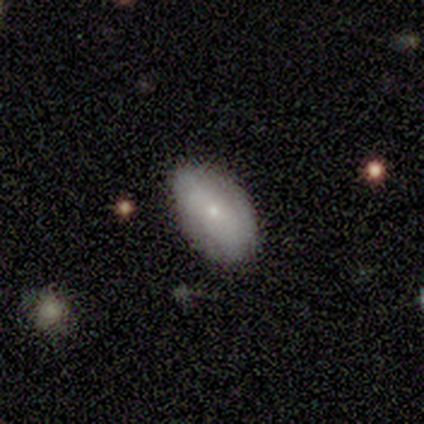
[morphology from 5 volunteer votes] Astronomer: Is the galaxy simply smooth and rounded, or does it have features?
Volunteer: smooth — 60% (runner-up: featured or disk, 40%).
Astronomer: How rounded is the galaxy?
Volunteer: in between — 100%.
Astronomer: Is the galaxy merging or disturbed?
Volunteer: none — 100%.